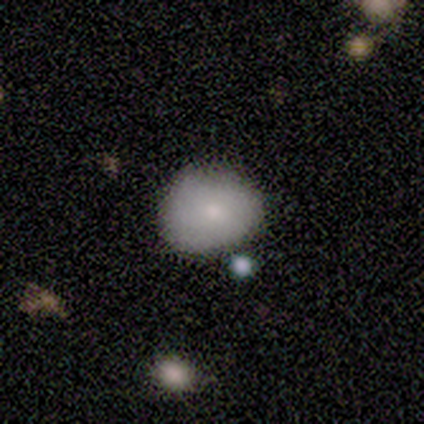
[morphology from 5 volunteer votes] smooth-or-featured: smooth: 40% (tied) | featured or disk: 40% (tied) | star or artifact: 20%
  how-rounded: in between: 100% | round: 0% | cigar-shaped: 0%
  merging: minor disturbance: 75% | major disturbance: 25% | none: 0% | merger: 0%